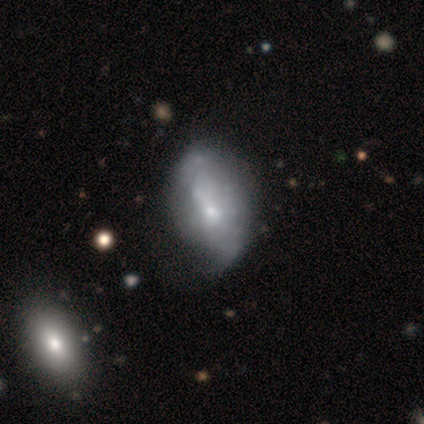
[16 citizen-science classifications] smooth_or_featured: smooth (p=0.50) [alt: featured or disk p=0.38]
how_rounded: in between (p=1.00)
merging: minor disturbance (p=0.50) [alt: none p=0.36]